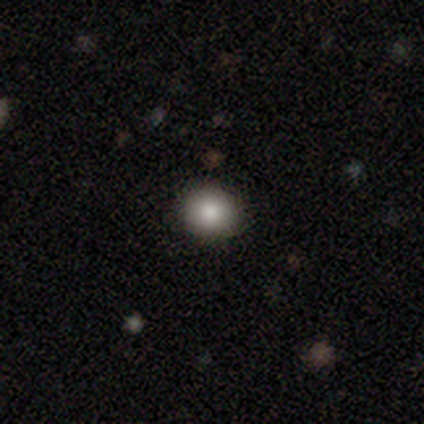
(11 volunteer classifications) This is clearly a smooth galaxy (82%). How rounded: clearly round (89%). Merging: clearly none (100%).